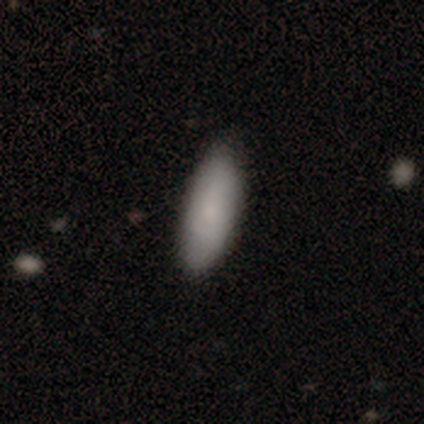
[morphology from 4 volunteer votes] This is likely a smooth galaxy (75%). How rounded: clearly in between (100%). Merging: likely none (67%).